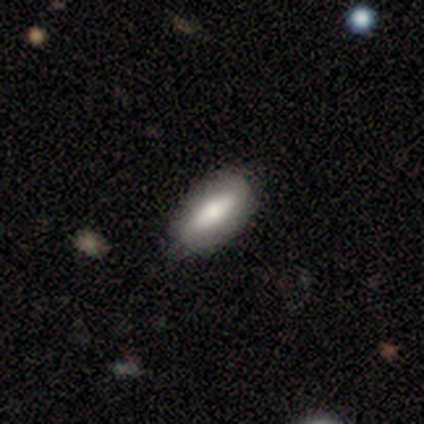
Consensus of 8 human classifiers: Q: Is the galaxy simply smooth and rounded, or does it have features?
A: smooth — 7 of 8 (88%).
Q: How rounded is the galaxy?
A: in between — 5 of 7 (71%).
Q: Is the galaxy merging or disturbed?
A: none — 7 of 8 (88%).